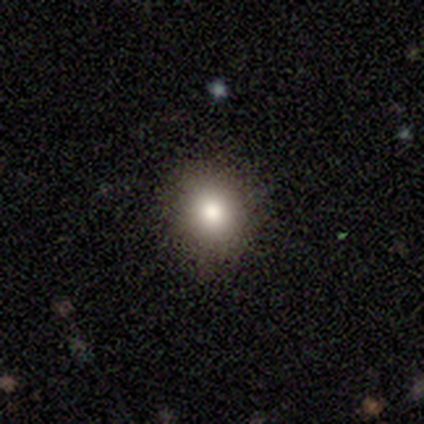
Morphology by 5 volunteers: type=smooth (80%); roundness=round (50%, tied with in between); merging=none (75%).